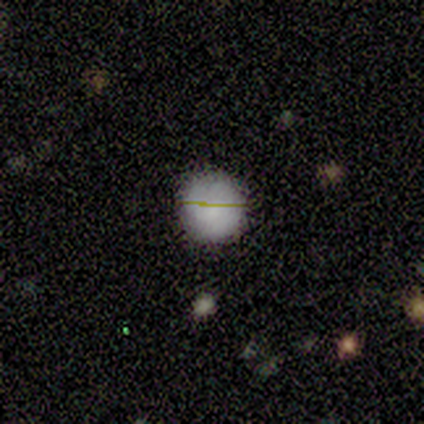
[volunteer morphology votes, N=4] A smooth galaxy with no disk features (100%) that is round (100%).

Vote fractions:
- Smooth or featured? smooth: 100% / featured or disk: 0% / star or artifact: 0%
- How rounded? round: 100% / in between: 0% / cigar-shaped: 0%
- Merging? none: 75% / minor disturbance: 25% / major disturbance: 0% / merger: 0%